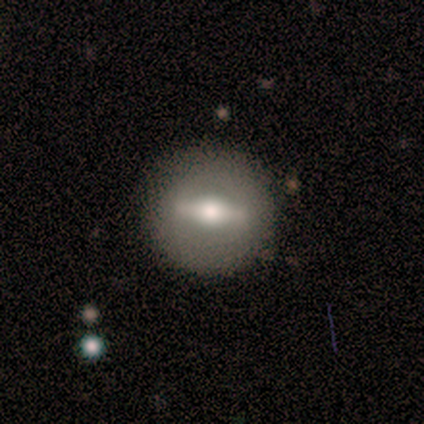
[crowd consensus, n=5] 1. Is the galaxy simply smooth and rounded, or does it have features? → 60% featured or disk, 20% smooth, 20% star or artifact.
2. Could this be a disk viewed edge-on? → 100% no, 0% yes.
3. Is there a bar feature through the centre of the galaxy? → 67% strong, 33% no, 0% weak.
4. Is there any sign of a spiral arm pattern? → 100% no, 0% yes.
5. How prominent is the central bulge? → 67% small, 33% moderate, 0% dominant, 0% large, 0% none.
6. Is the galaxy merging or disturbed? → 50% none, 25% minor disturbance, 25% major disturbance, 0% merger.